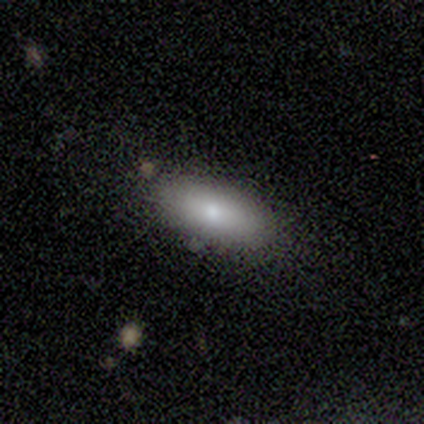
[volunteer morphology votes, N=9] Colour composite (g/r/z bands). It shows a smooth galaxy with no disk features (100%) that is in between round and cigar-shaped (78%). Merging: none (100%).